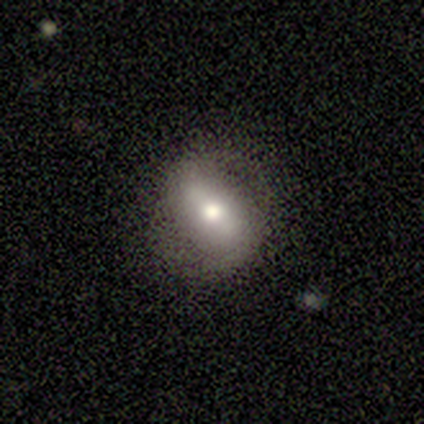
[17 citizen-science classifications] Smooth or featured? featured or disk (71%)
Edge-on disk? no (83%)
Bar? weak (50%)
Spiral arms? no (70%)
Bulge size? moderate (80%)
Merging? none (88%)